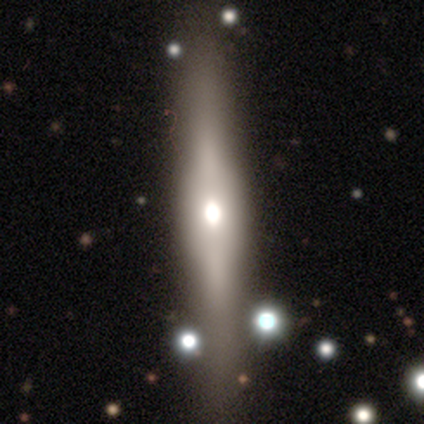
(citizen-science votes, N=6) Smooth or featured? featured or disk (67%)
Edge-on disk? yes (50%, tied with no)
Edge-on bulge? boxy (50%, tied with rounded)
Merging? none (67%)